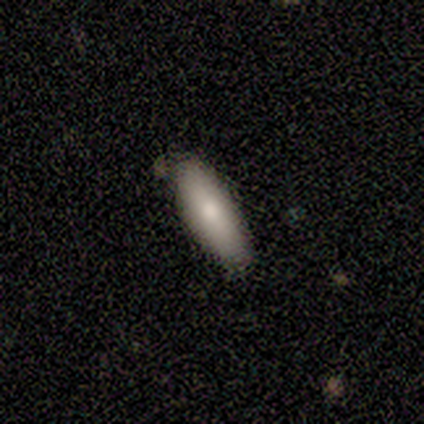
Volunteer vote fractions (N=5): A smooth galaxy with no disk features (60%) that is in between round and cigar-shaped (67%). Merging: none (75%).